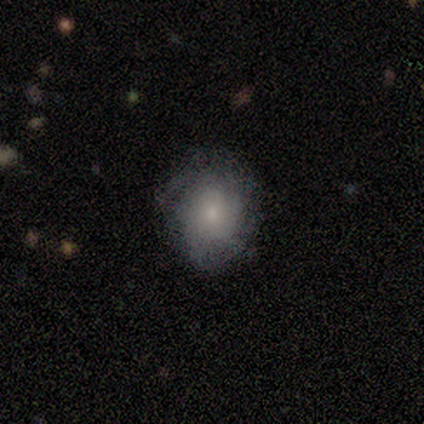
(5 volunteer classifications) smooth 80%, featured or disk 20%, star or artifact 0%. Down the decision tree: how rounded — round (50%, tied with in between); merging — none (80%).